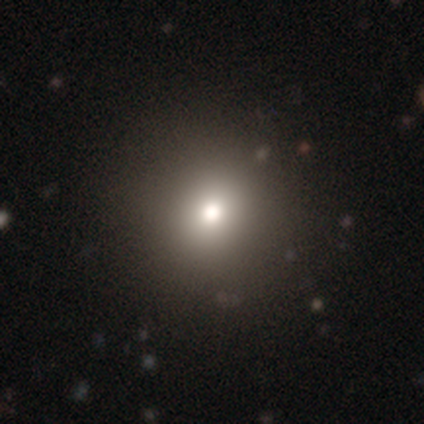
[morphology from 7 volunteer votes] type=smooth (71%); roundness=round (100%); merging=none (83%).